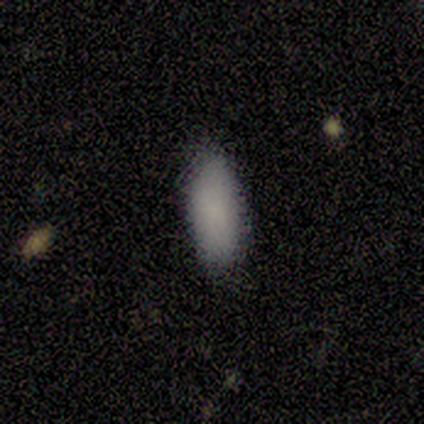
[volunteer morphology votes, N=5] smooth_or_featured: smooth (p=1.00)
how_rounded: in between (p=1.00)
merging: none (p=1.00)